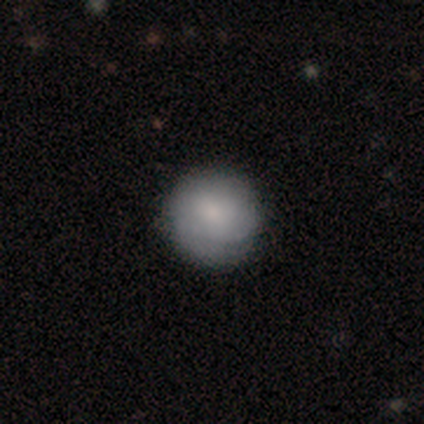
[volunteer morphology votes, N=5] A smooth galaxy with no disk features (60%) that is round (67%). Merging: none (100%).